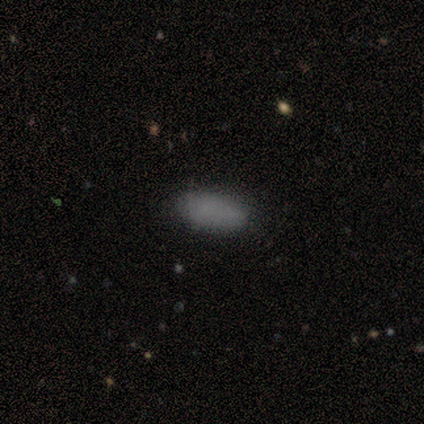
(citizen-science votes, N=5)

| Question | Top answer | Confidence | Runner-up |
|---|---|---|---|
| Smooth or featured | smooth | 100% | — |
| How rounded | in between | 80% | round (20%) |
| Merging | none | 100% | — |